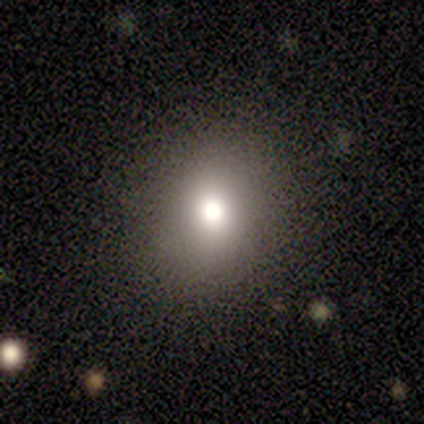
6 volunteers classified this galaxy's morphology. smooth-or-featured: smooth: 100% | featured or disk: 0% | star or artifact: 0%
  how-rounded: round: 67% | in between: 33% | cigar-shaped: 0%
  merging: none: 100% | minor disturbance: 0% | major disturbance: 0% | merger: 0%